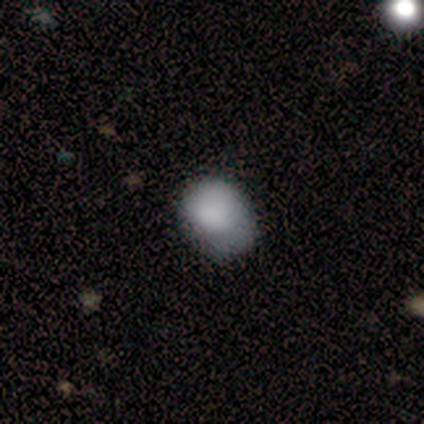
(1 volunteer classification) This appears to be a smooth galaxy with no disk features (100%) that is round (100%). Merging: none (100%).